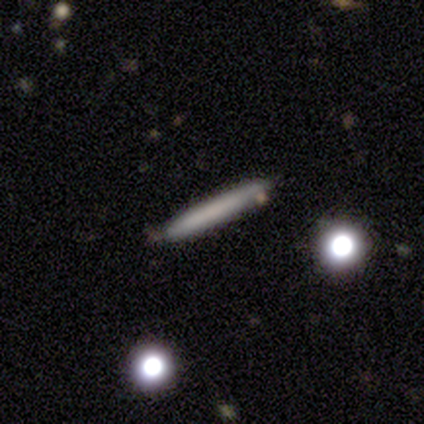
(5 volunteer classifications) Smooth or featured: featured or disk — 60% (smooth — 40%)
Edge-on disk: yes — 67% (no — 33%)
Edge-on bulge: none — 100%
Merging: none — 60% (minor disturbance — 40%)